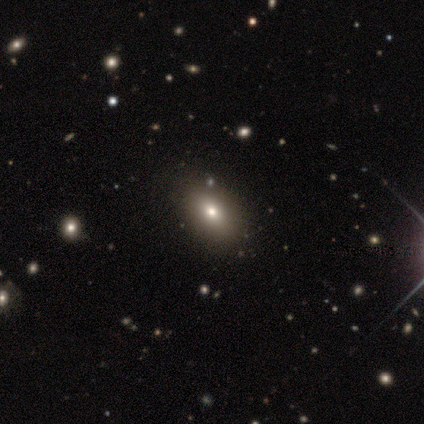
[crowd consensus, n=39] Smooth or featured: smooth — 67% (featured or disk — 21%)
How rounded: in between — 88% (round — 12%)
Merging: none — 97% (minor disturbance — 3%)